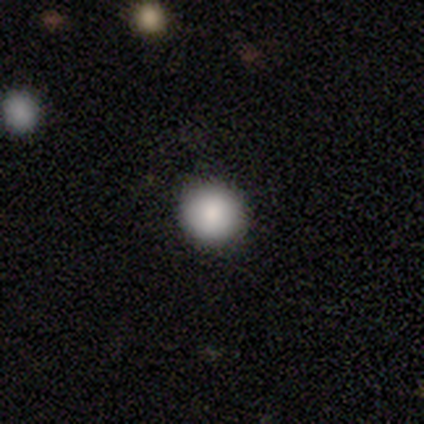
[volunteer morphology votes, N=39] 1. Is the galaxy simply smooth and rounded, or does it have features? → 95% smooth, 3% featured or disk, 3% star or artifact.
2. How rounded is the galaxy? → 97% round, 3% in between, 0% cigar-shaped.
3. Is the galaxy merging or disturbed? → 89% none, 11% minor disturbance, 0% major disturbance, 0% merger.